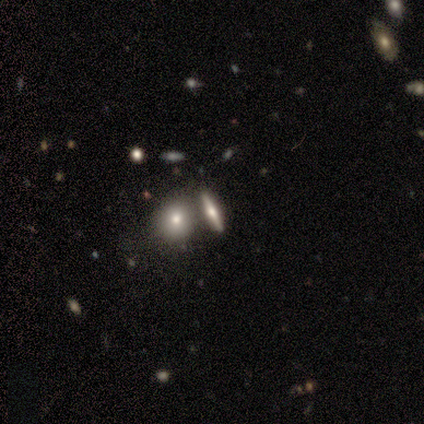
Morphology: type=featured or disk (60%); edge-on=yes (100%); edge-on bulge=rounded (67%); merging=none (60%).